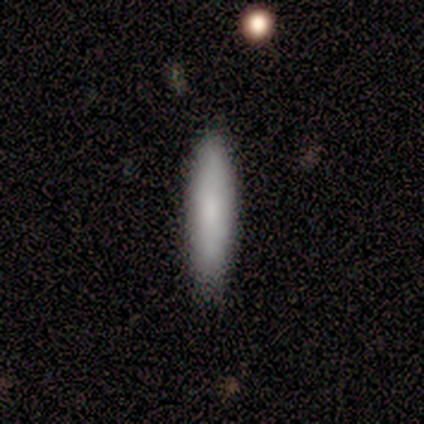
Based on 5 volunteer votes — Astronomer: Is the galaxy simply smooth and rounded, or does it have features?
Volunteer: smooth — 40%, tied with star or artifact at 40%.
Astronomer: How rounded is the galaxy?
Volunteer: in between — 50%, tied with cigar-shaped at 50%.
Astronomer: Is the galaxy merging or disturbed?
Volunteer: none — 67%.